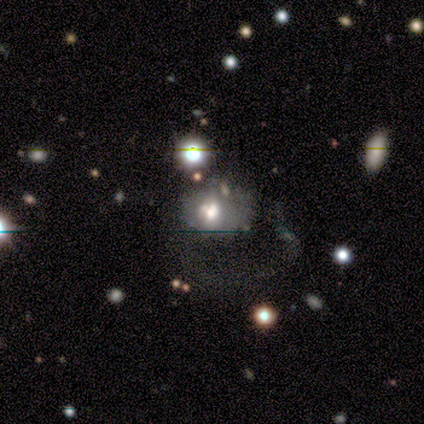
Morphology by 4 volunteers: A smooth galaxy with no disk features (50%) that is round (100%).

Vote fractions:
- Smooth or featured? smooth: 50% / featured or disk: 25% / star or artifact: 25%
- How rounded? round: 100% / in between: 0% / cigar-shaped: 0%
- Merging? none: 100% / minor disturbance: 0% / major disturbance: 0% / merger: 0%